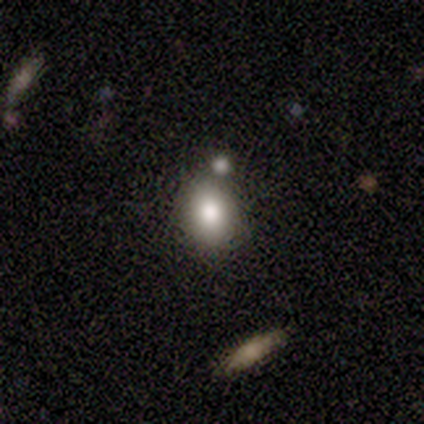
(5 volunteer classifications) smooth-or-featured: smooth: 80% | featured or disk: 20% | star or artifact: 0%
  how-rounded: round: 50% (tied) | in between: 50% (tied) | cigar-shaped: 0%
  merging: none: 80% | minor disturbance: 20% | major disturbance: 0% | merger: 0%